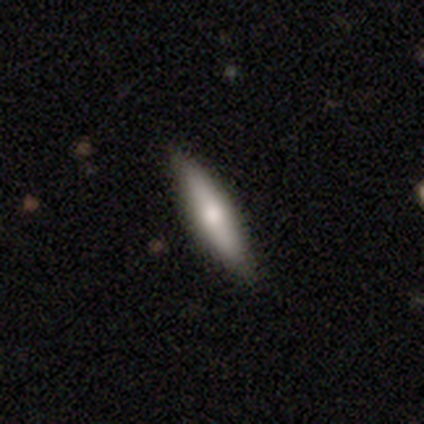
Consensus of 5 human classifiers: Volunteers were most divided on "merging": none: 60%, minor disturbance: 40%, major disturbance: 0%, merger: 0%. More confident: smooth or featured — smooth (100%); how rounded — cigar-shaped (80%).